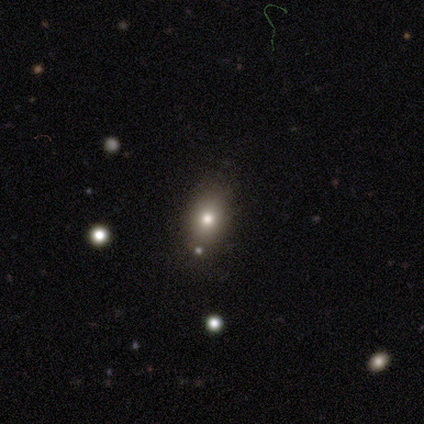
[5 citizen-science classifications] Smooth or featured?
  - smooth: 100% *
  - featured or disk: 0%
  - star or artifact: 0%
How rounded?
  - in between: 60% *
  - round: 40%
  - cigar-shaped: 0%
Merging?
  - none: 80% *
  - minor disturbance: 20%
  - major disturbance: 0%
  - merger: 0%